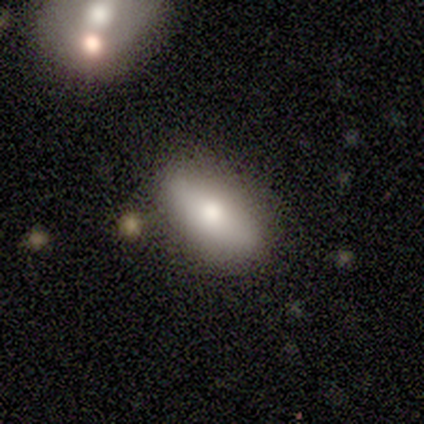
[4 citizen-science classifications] Smooth or featured: smooth — 75% (featured or disk — 25%)
How rounded: in between — 67% (round — 33%)
Merging: none — 75% (merger — 25%)